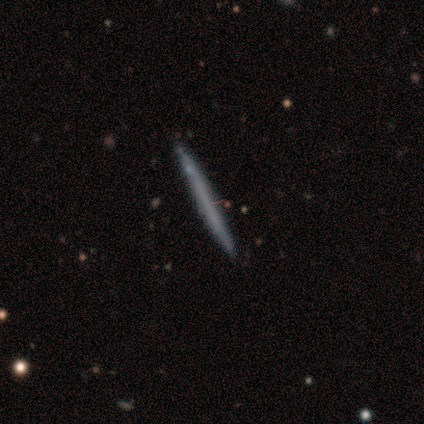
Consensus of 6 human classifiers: smooth 50% (tied), featured or disk 50% (tied), star or artifact 0%. Down the decision tree: how rounded — cigar-shaped (100%); merging — none (100%).